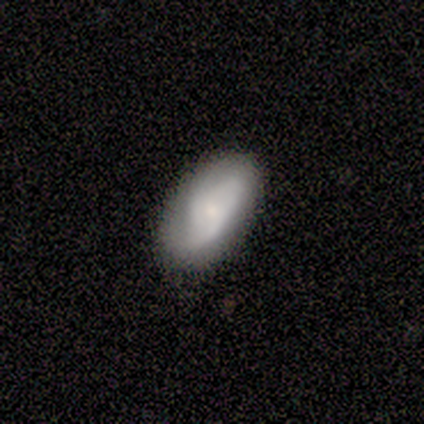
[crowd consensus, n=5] This is likely a featured or disk galaxy (60%). It is clearly not viewed edge-on (100%). Bar: likely no (67%). Spiral arm pattern: likely no (67%). Central bulge: likely small (67%). Merging: likely minor disturbance (60%).